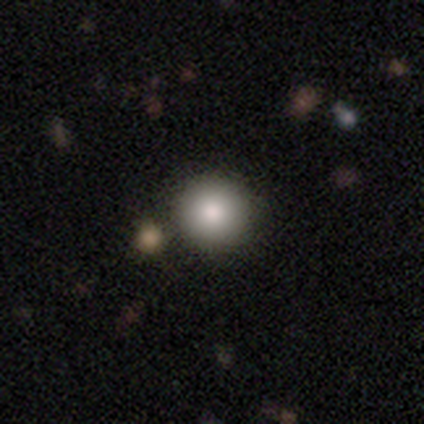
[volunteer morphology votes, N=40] Volunteers were most divided on "merging": none: 62%, merger: 10%, minor disturbance: 5%, major disturbance: 0%. More confident: how rounded — round (95%); smooth or featured — smooth (92%).